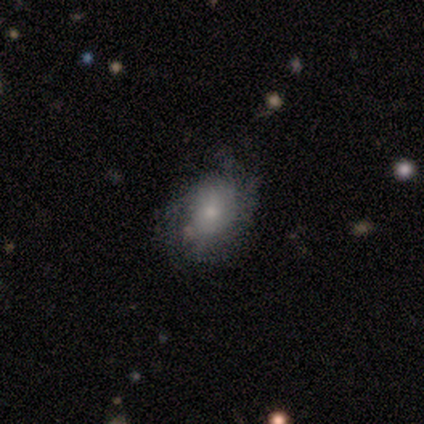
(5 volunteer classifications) Smooth or featured?
  - featured or disk: 80% *
  - smooth: 20%
  - star or artifact: 0%
Edge-on disk?
  - no: 100% *
  - yes: 0%
Bar?
  - no: 75% *
  - weak: 25%
  - strong: 0%
Spiral arms?
  - yes: 100% *
  - no: 0%
Spiral winding?
  - medium: 50% *
  - tight: 25%
  - loose: 25%
Spiral arm count?
  - can't tell: 50% *
  - 2: 25%
  - more than 4: 25%
  - 1: 0%
  - 3: 0%
  - 4: 0%
Bulge size?
  - moderate: 75% *
  - small: 25%
  - dominant: 0%
  - large: 0%
  - none: 0%
Merging?
  - none: 60% *
  - minor disturbance: 20%
  - major disturbance: 20%
  - merger: 0%